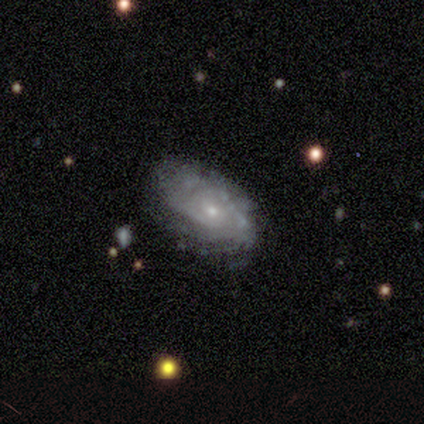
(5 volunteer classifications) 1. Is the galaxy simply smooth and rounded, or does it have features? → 60% featured or disk, 40% smooth, 0% star or artifact.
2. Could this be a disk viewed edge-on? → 100% no, 0% yes.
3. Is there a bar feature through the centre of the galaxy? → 100% no, 0% strong, 0% weak.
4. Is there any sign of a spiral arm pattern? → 100% yes, 0% no.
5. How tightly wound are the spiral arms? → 67% tight, 33% medium, 0% loose.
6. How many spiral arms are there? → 67% can't tell, 33% 4, 0% 1, 0% 2, 0% 3, 0% more than 4.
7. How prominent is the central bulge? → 67% small, 33% moderate, 0% dominant, 0% large, 0% none.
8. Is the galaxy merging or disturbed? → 100% none, 0% minor disturbance, 0% major disturbance, 0% merger.